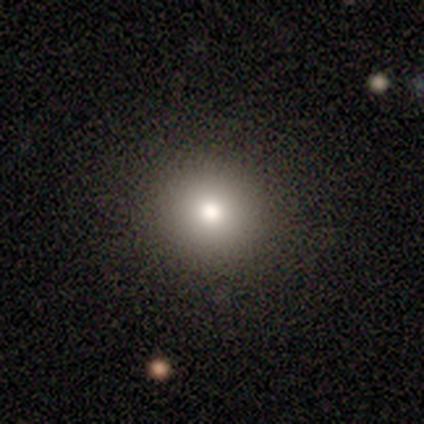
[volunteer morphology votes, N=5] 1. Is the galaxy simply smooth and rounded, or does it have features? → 80% smooth, 20% star or artifact, 0% featured or disk.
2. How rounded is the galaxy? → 100% round, 0% in between, 0% cigar-shaped.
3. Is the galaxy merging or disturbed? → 100% none, 0% minor disturbance, 0% major disturbance, 0% merger.